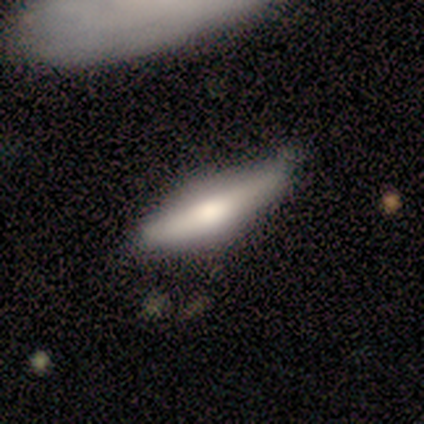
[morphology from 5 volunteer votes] This appears to be a smooth galaxy with no disk features (60%) that is cigar-shaped (67%). Merging: minor disturbance (60%).